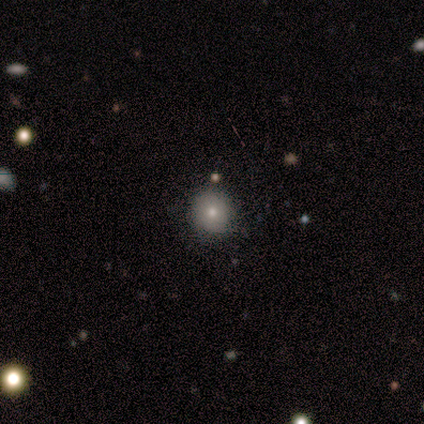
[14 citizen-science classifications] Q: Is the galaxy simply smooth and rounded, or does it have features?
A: smooth — 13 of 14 (93%).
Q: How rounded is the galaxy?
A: round — 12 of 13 (92%).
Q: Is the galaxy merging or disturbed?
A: none — 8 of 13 (62%).